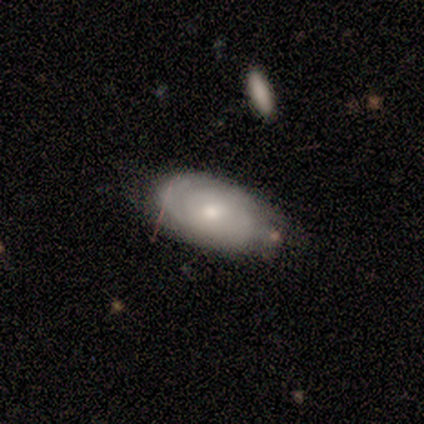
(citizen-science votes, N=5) Smooth or featured? featured or disk (60%)
Edge-on disk? no (100%)
Bar? no (67%)
Spiral arms? yes (100%)
Spiral winding? tight (67%)
Spiral arm count? 1 (67%)
Bulge size? moderate (100%)
Merging? none (40%, tied with minor disturbance)